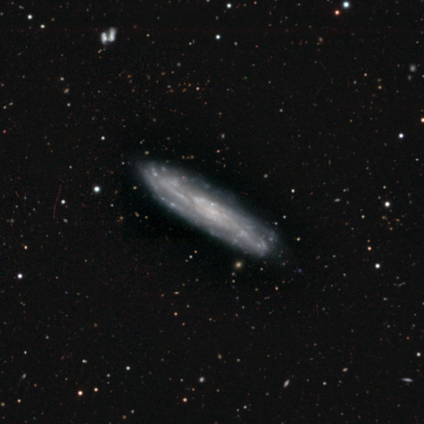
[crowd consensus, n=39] This is clearly a featured or disk galaxy (95%). It is likely not viewed edge-on (76%). Bar: likely no (68%). Spiral arm pattern: clearly yes (86%). Spiral arm count: likely can't tell (67%). Spiral winding: possibly tight (58%). Central bulge: likely none (61%). Merging: clearly none (90%).